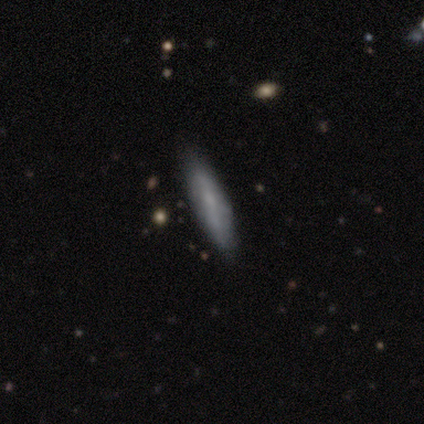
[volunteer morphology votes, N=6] A smooth galaxy with no disk features (50%, tied with featured or disk) that is cigar-shaped (100%).

Vote fractions:
- Smooth or featured? smooth: 50% (tied) / featured or disk: 50% (tied) / star or artifact: 0%
- How rounded? cigar-shaped: 100% / round: 0% / in between: 0%
- Merging? none: 83% / minor disturbance: 17% / major disturbance: 0% / merger: 0%